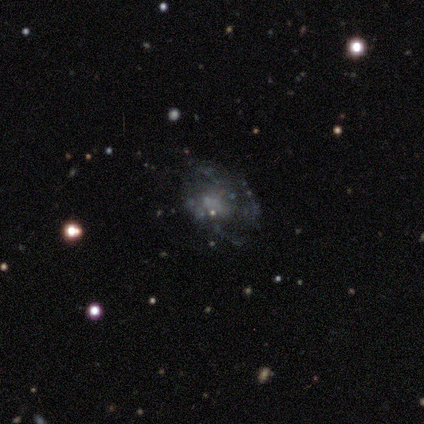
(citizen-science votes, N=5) A featured or disk galaxy (100%) with no bar (100%), no spiral arms (100%) and no central bulge (100%).

Vote fractions:
- Smooth or featured? featured or disk: 100% / smooth: 0% / star or artifact: 0%
- Edge-on disk? no: 100% / yes: 0%
- Bar? no: 100% / strong: 0% / weak: 0%
- Spiral arms? no: 100% / yes: 0%
- Bulge size? none: 100% / dominant: 0% / large: 0% / moderate: 0% / small: 0%
- Merging? major disturbance: 60% / none: 40% / minor disturbance: 0% / merger: 0%